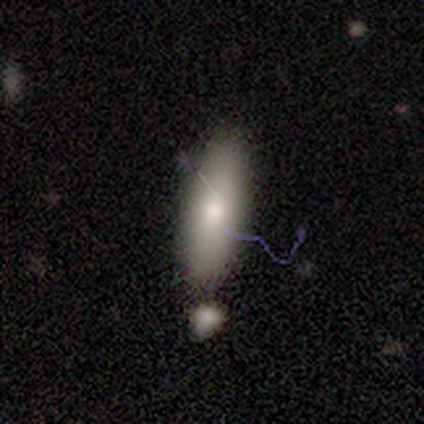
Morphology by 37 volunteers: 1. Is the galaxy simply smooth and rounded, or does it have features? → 59% smooth, 30% featured or disk, 11% star or artifact.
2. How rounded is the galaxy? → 64% in between, 36% cigar-shaped, 0% round.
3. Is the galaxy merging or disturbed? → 58% merger, 0% none, 0% minor disturbance, 0% major disturbance.